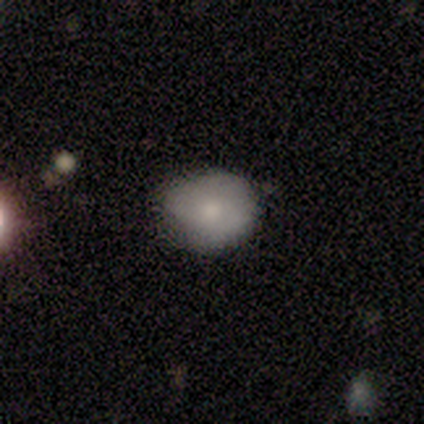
Smooth or featured: smooth — 87% (featured or disk — 10%)
How rounded: round — 68% (in between — 32%)
Merging: none — 47% (minor disturbance — 21%)